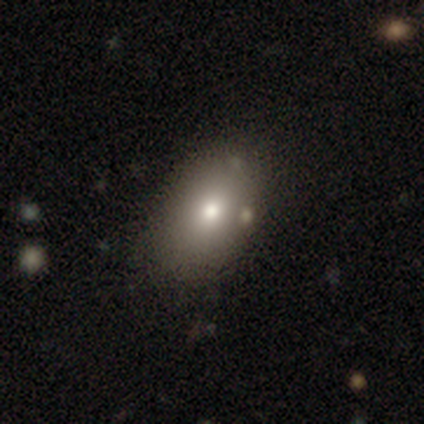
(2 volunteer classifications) A featured or disk galaxy (50%, tied with star or artifact) with no bar (100%), no spiral arms (100%) and a dominant central bulge (100%).

Vote fractions:
- Smooth or featured? featured or disk: 50% (tied) / star or artifact: 50% (tied) / smooth: 0%
- Edge-on disk? no: 100% / yes: 0%
- Bar? no: 100% / strong: 0% / weak: 0%
- Spiral arms? no: 100% / yes: 0%
- Bulge size? dominant: 100% / large: 0% / moderate: 0% / small: 0% / none: 0%
- Merging? minor disturbance: 100% / none: 0% / major disturbance: 0% / merger: 0%